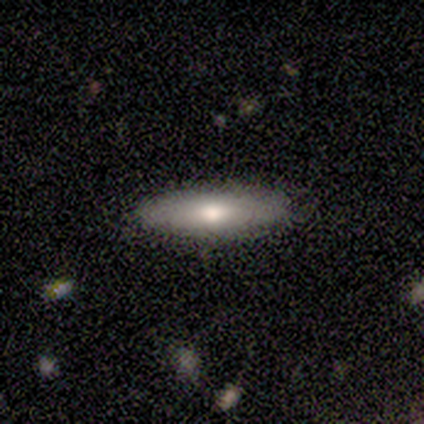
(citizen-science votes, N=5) Morphology: type=smooth (100%); roundness=in between (60%); merging=none (80%).